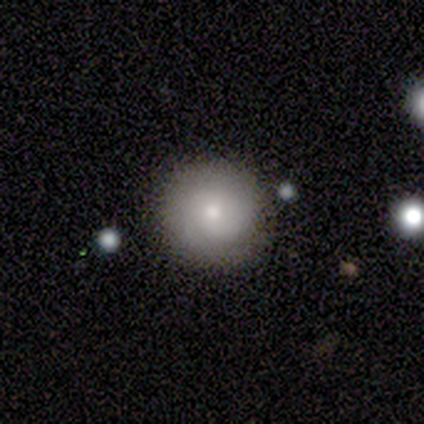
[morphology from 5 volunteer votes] smooth-or-featured: smooth: 60% | featured or disk: 20% | star or artifact: 20%
  how-rounded: round: 100% | in between: 0% | cigar-shaped: 0%
  merging: none: 75% | major disturbance: 25% | minor disturbance: 0% | merger: 0%